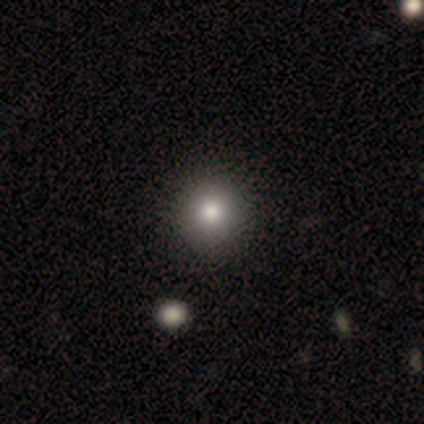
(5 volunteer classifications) A smooth galaxy with no disk features (100%) that is round (100%).

Vote fractions:
- Smooth or featured? smooth: 100% / featured or disk: 0% / star or artifact: 0%
- How rounded? round: 100% / in between: 0% / cigar-shaped: 0%
- Merging? none: 100% / minor disturbance: 0% / major disturbance: 0% / merger: 0%